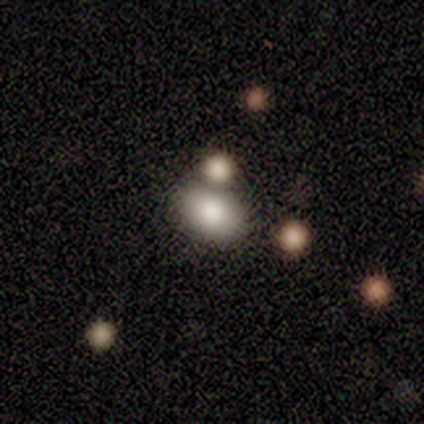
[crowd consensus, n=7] Smooth or featured? smooth (100%)
How rounded? in between (71%)
Merging? none (57%)